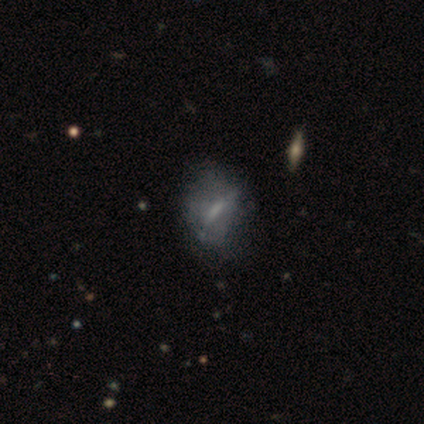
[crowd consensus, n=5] Morphology: type=featured or disk (60%); edge-on=no (100%); bar=strong (67%); spiral arms=no (100%); bulge=large (33%, tied with small and none); merging=none (50%).